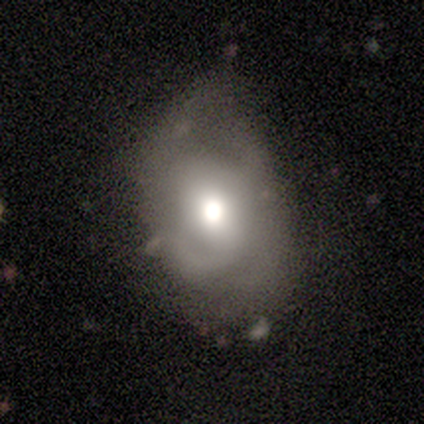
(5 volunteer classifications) smooth-or-featured: featured or disk: 60% | smooth: 40% | star or artifact: 0%
  disk-edge-on: no: 100% | yes: 0%
    bar: weak: 67% | no: 33% | strong: 0%
    has-spiral-arms: yes: 67% | no: 33%
      spiral-winding: tight: 50% (tied) | medium: 50% (tied) | loose: 0%
      spiral-arm-count: 4: 50% (tied) | can't tell: 50% (tied) | 1: 0% | 2: 0% | 3: 0% | more than 4: 0%
    bulge-size: moderate: 100% | dominant: 0% | large: 0% | small: 0% | none: 0%
  merging: none: 60% | minor disturbance: 20% | major disturbance: 20% | merger: 0%